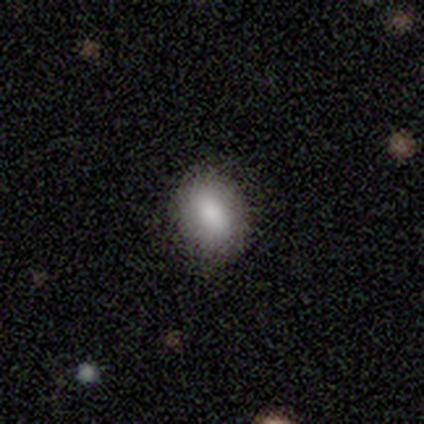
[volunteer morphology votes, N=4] Smooth or featured?
  - smooth: 100% *
  - featured or disk: 0%
  - star or artifact: 0%
How rounded?
  - in between: 100% *
  - round: 0%
  - cigar-shaped: 0%
Merging?
  - none: 100% *
  - minor disturbance: 0%
  - major disturbance: 0%
  - merger: 0%